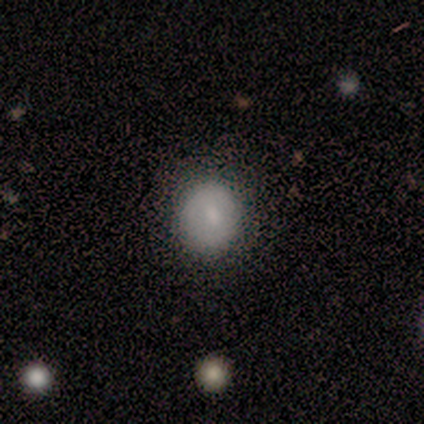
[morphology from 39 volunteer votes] Overall: smooth (77%). How rounded: round (83%). Merging: none (66%).